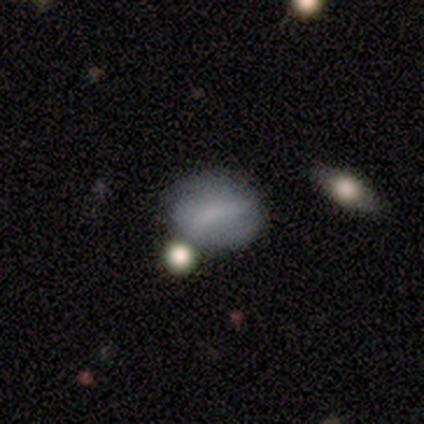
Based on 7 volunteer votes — A smooth galaxy with no disk features (86%) that is in between round and cigar-shaped (83%).

Vote fractions:
- Smooth or featured? smooth: 86% / featured or disk: 14% / star or artifact: 0%
- How rounded? in between: 83% / round: 17% / cigar-shaped: 0%
- Merging? minor disturbance: 57% / none: 29% / merger: 14% / major disturbance: 0%